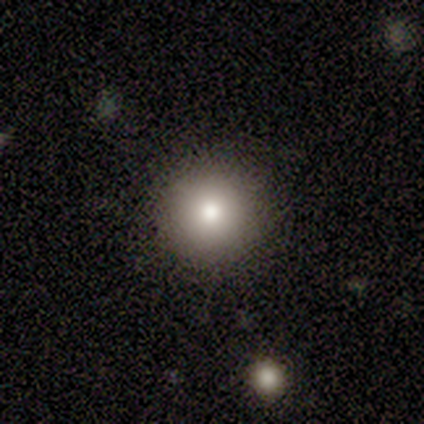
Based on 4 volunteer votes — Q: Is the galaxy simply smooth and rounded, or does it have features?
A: smooth — 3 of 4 (75%).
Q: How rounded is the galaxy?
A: round — 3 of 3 (100%).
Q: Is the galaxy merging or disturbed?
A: none — 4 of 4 (100%).